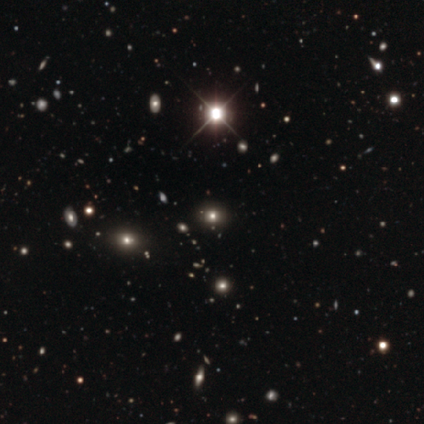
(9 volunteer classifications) Morphology: type=star or artifact (56%).